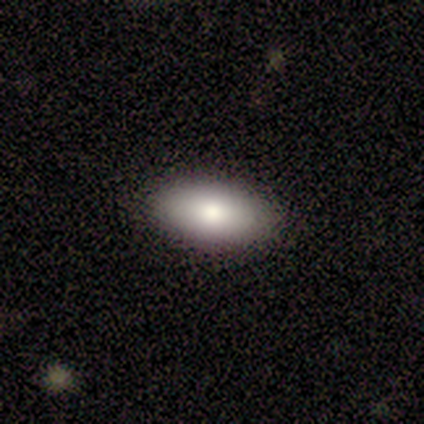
A smooth galaxy with no disk features (60%) that is in between round and cigar-shaped (67%). Merging: none (100%).